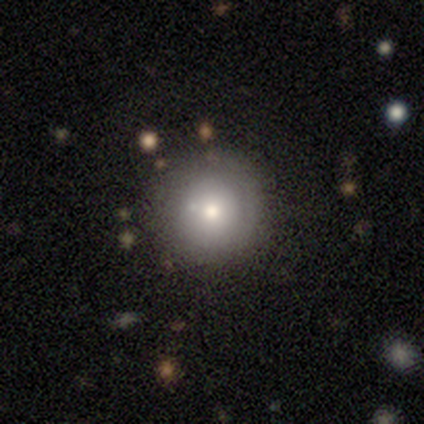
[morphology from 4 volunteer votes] Smooth or featured: smooth — 50% (featured or disk — 25%)
How rounded: round — 100%
Merging: none — 100%